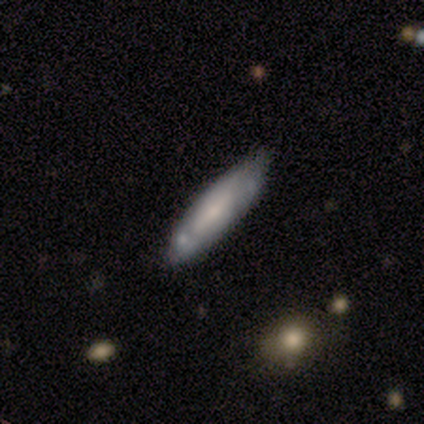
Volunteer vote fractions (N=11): Smooth or featured: featured or disk — 55% (smooth — 45%)
Edge-on disk: no — 67% (yes — 33%)
Bar: weak — 75% (strong — 25%)
Spiral arms: yes — 75% (no — 25%)
Spiral winding: medium — 67% (tight — 33%)
Spiral arm count: can't tell — 67% (2 — 33%)
Bulge size: small — 75% (moderate — 25%)
Merging: none — 82% (minor disturbance — 18%)